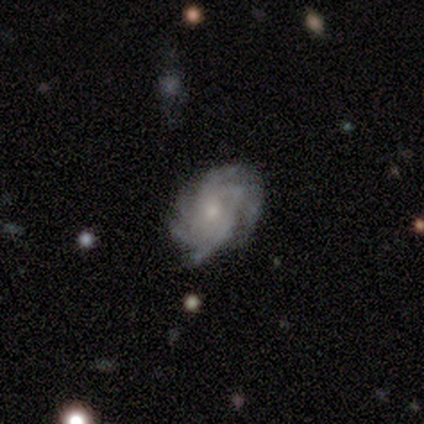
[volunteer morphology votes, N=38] featured or disk 89%, smooth 5%, star or artifact 5%. Down the decision tree: edge-on disk — no (91%); bar — no (71%); spiral arms — yes (97%); spiral arm count — more than 4 (53%); spiral winding — tight (60%); bulge size — small (84%); merging — none (75%).